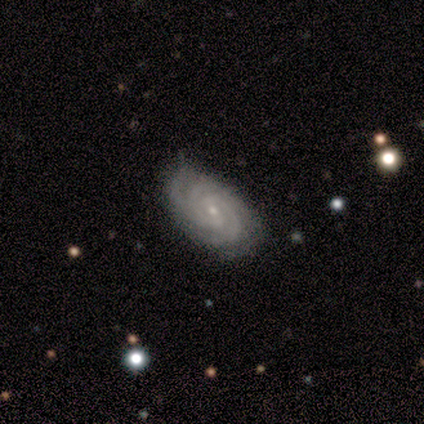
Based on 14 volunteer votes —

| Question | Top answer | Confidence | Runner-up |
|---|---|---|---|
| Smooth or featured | featured or disk | 86% | smooth (14%) |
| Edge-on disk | no | 100% | — |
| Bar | no | 67% | strong (17%) |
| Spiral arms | yes | 100% | — |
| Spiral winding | tight | 75% | medium (17%) |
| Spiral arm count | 3 | 58% | 4 (25%) |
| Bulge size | small | 83% | moderate (8%) |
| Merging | none | 93% | minor disturbance (7%) |